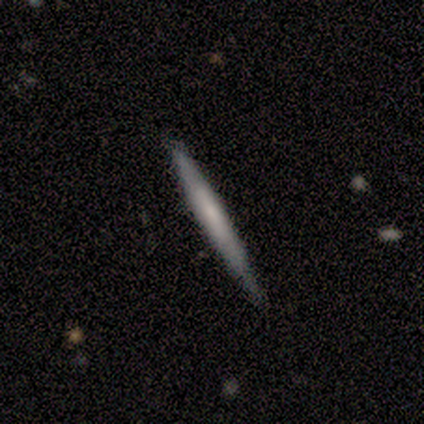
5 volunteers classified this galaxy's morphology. A smooth galaxy with no disk features (60%) that is cigar-shaped (100%).

Vote fractions:
- Smooth or featured? smooth: 60% / featured or disk: 40% / star or artifact: 0%
- How rounded? cigar-shaped: 100% / round: 0% / in between: 0%
- Merging? none: 80% / minor disturbance: 20% / major disturbance: 0% / merger: 0%